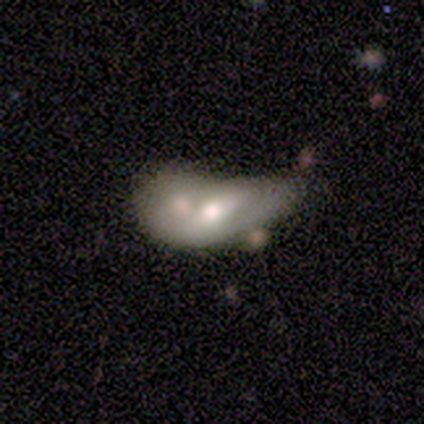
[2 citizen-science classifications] This is possibly a smooth galaxy (50%, tied with featured or disk). How rounded: clearly in between (100%). Merging: possibly minor disturbance (50%, tied with merger).